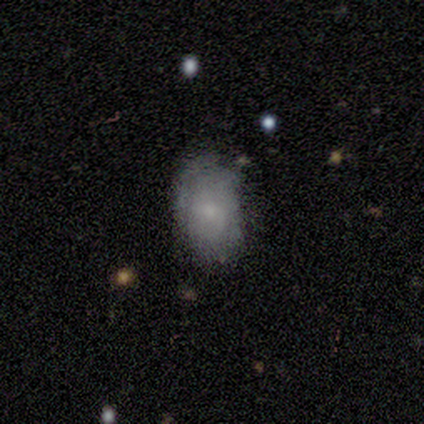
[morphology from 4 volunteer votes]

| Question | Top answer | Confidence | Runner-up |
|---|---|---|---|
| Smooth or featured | smooth | 100% | — |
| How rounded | in between | 75% | round (25%) |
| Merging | none | 100% | — |